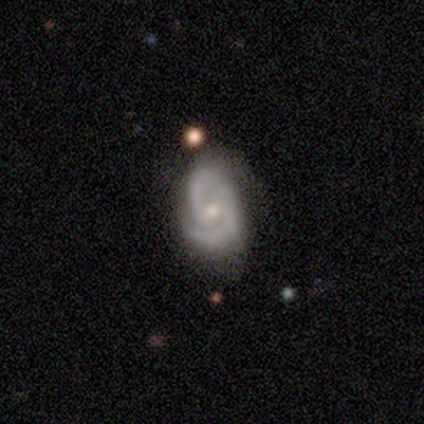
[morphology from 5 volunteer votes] Smooth or featured?
  - featured or disk: 100% *
  - smooth: 0%
  - star or artifact: 0%
Edge-on disk?
  - no: 100% *
  - yes: 0%
Bar?
  - weak: 60% *
  - no: 40%
  - strong: 0%
Spiral arms?
  - yes: 100% *
  - no: 0%
Spiral winding?
  - medium: 60% *
  - tight: 40%
  - loose: 0%
Spiral arm count?
  - 2: 80% *
  - 3: 20%
  - 1: 0%
  - 4: 0%
  - more than 4: 0%
  - can't tell: 0%
Bulge size?
  - small: 60% *
  - moderate: 20%
  - none: 20%
  - dominant: 0%
  - large: 0%
Merging?
  - none: 60% *
  - minor disturbance: 40%
  - major disturbance: 0%
  - merger: 0%